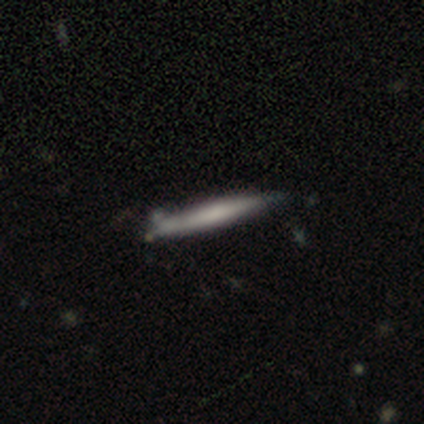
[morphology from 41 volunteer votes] This appears to be a smooth galaxy with no disk features (59%) that is cigar-shaped (92%). Merging: none (80%).